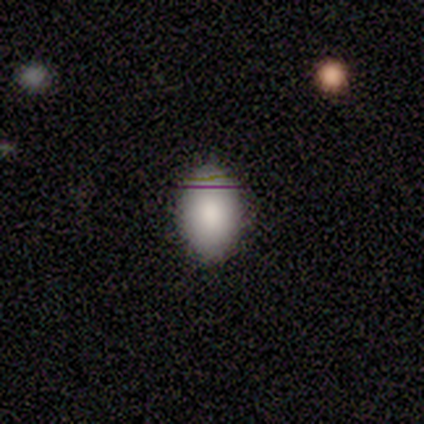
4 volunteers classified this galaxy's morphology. This is possibly a smooth galaxy (50%, tied with featured or disk). How rounded: clearly in between (100%). Merging: clearly none (100%).